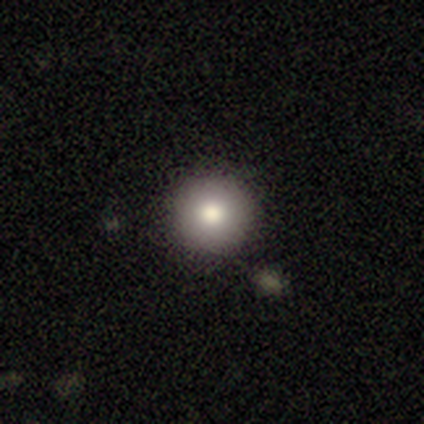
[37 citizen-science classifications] Volunteers were most divided on "merging": none: 86%, minor disturbance: 11%, major disturbance: 3%, merger: 0%. More confident: how rounded — round (100%); smooth or featured — smooth (86%).